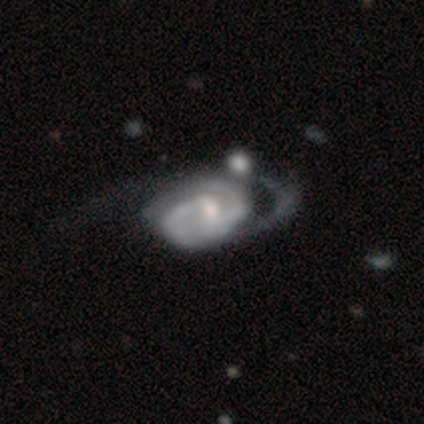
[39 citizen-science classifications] This is clearly a featured or disk galaxy (92%). It is clearly not viewed edge-on (100%). Bar: possibly weak (58%). Spiral arm pattern: clearly yes (97%). Spiral arm count: likely 2 (74%). Spiral winding: marginally tight (43%, tied with medium). Central bulge: possibly small (47%). Merging: marginally none (24%).